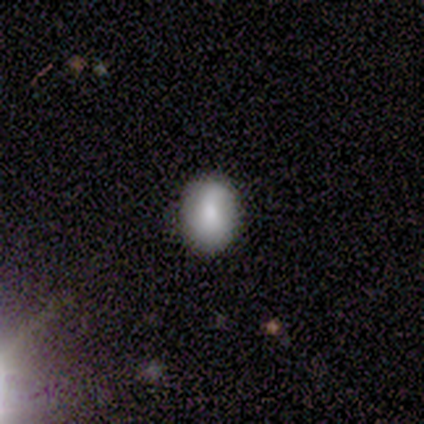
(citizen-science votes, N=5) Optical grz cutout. It shows a smooth galaxy with no disk features (100%) that is in between round and cigar-shaped (80%). Merging: none (100%).